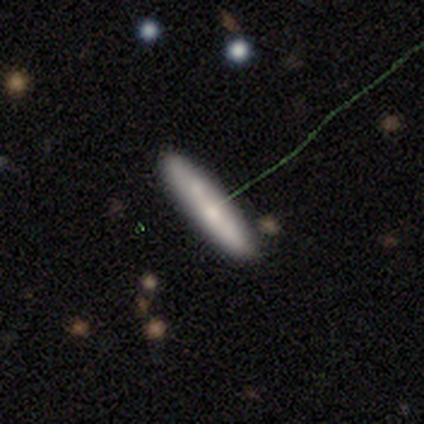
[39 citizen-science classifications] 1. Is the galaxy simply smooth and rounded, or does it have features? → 69% smooth, 23% featured or disk, 8% star or artifact.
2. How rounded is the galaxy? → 85% cigar-shaped, 15% in between, 0% round.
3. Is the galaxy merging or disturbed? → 81% none, 14% minor disturbance, 6% major disturbance, 0% merger.